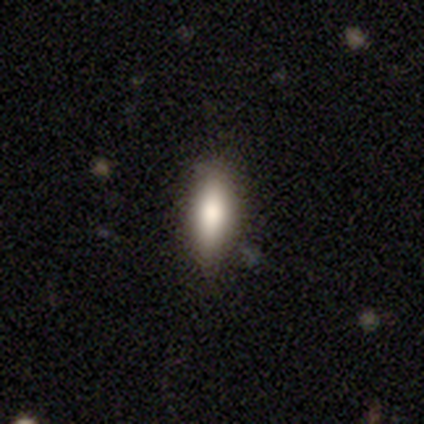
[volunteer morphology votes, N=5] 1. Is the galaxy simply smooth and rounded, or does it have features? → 60% smooth, 20% featured or disk, 20% star or artifact.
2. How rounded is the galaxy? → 67% cigar-shaped, 33% in between, 0% round.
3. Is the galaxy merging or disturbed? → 75% none, 25% minor disturbance, 0% major disturbance, 0% merger.